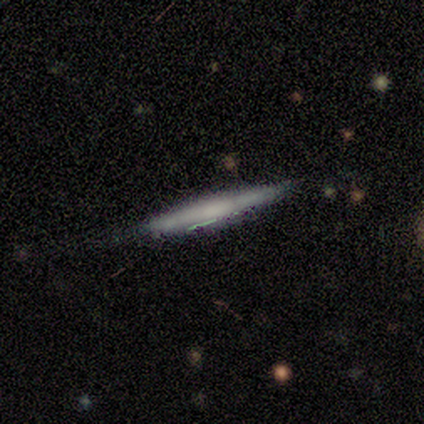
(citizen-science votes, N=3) Smooth or featured: featured or disk — 67% (star or artifact — 33%)
Edge-on disk: yes — 50% (tied with no — 50%)
Edge-on bulge: none — 100%
Merging: none — 50% (tied with major disturbance — 50%)